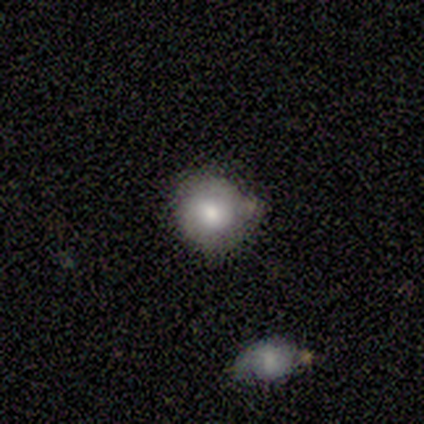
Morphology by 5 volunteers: smooth_or_featured: featured or disk (p=0.60) [alt: smooth p=0.40]
disk_edge_on: no (p=1.00)
bar: no (p=0.67) [alt: strong p=0.33]
has_spiral_arms: yes (p=0.67) [alt: no p=0.33]
spiral_winding: medium (p=0.50) [tied with: loose p=0.50]
spiral_arm_count: 2 (p=1.00)
bulge_size: moderate (p=0.67) [alt: large p=0.33]
merging: none (p=0.60) [alt: major disturbance p=0.40]